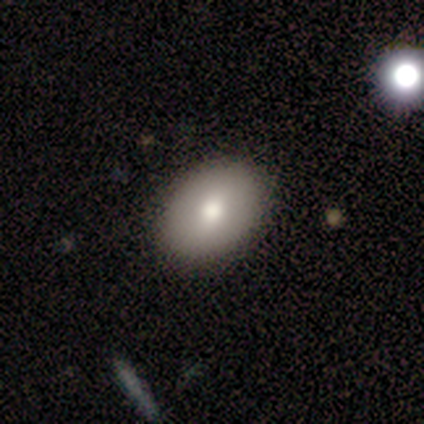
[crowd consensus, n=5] This is clearly a smooth galaxy (80%). How rounded: possibly round (50%, tied with in between). Merging: clearly none (100%).